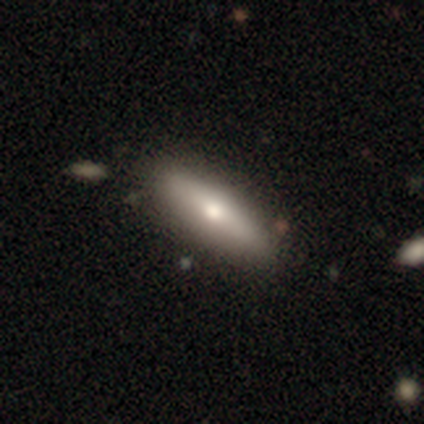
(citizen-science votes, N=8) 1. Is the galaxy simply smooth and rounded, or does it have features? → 75% smooth, 25% featured or disk, 0% star or artifact.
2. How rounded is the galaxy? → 50% in between (tied), 50% cigar-shaped (tied), 0% round.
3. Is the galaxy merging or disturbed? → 75% none, 12% minor disturbance, 12% merger, 0% major disturbance.